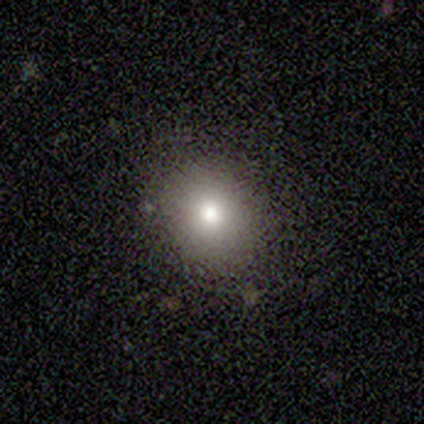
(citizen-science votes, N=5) Smooth or featured? smooth (40%, tied with star or artifact)
How rounded? round (100%)
Merging? none (100%)